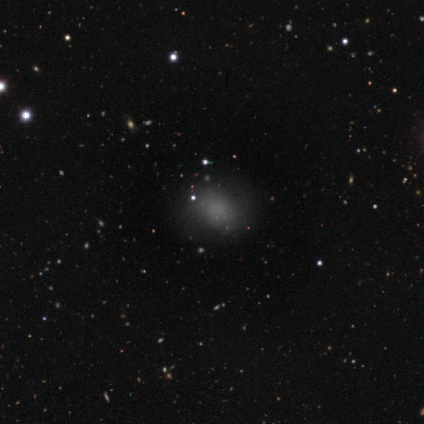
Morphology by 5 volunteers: A smooth galaxy with no disk features (60%) that is in between round and cigar-shaped (67%). Merging: none (50%, tied with minor disturbance).